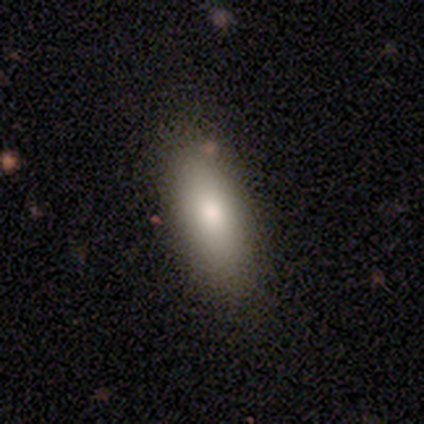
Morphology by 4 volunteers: Smooth or featured? smooth (100%)
How rounded? in between (100%)
Merging? none (75%)